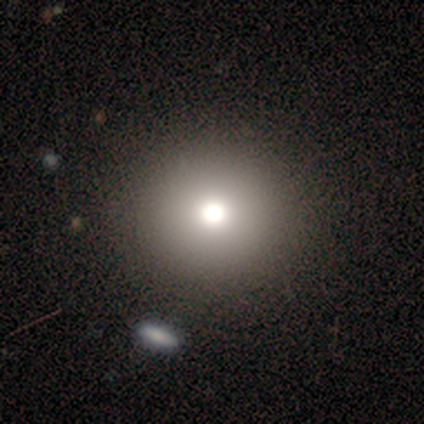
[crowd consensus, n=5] star or artifact 60%, smooth 40%, featured or disk 0%.